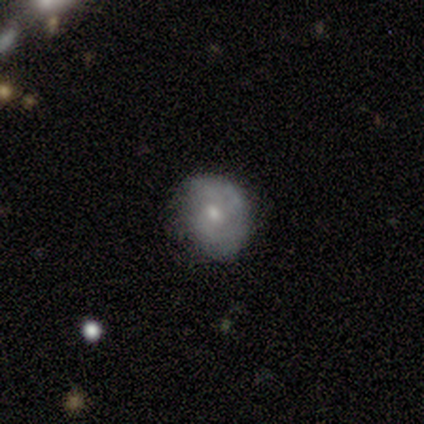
Q: Smooth or featured?
A: featured or disk (75%); runner-up: smooth (25%)
Q: Edge-on disk?
A: no (100%)
Q: Bar?
A: no (67%); runner-up: weak (33%)
Q: Spiral arms?
A: yes (100%)
Q: Spiral winding?
A: medium (67%); runner-up: loose (33%)
Q: Spiral arm count?
A: can't tell (67%); runner-up: 2 (33%)
Q: Bulge size?
A: small (67%); runner-up: moderate (33%)
Q: Merging?
A: none (50%); tied with: minor disturbance (50%)